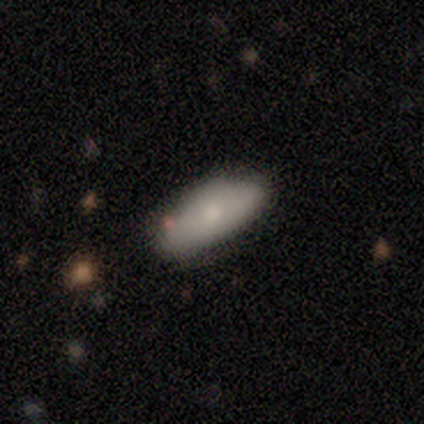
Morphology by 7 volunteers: Smooth or featured: smooth — 86% (star or artifact — 14%)
How rounded: in between — 67% (cigar-shaped — 33%)
Merging: none — 50% (minor disturbance — 33%)